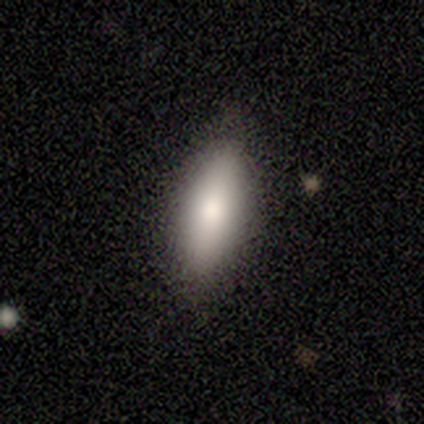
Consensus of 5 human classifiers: smooth_or_featured: smooth (p=0.80) [alt: star or artifact p=0.20]
how_rounded: in between (p=0.50) [tied with: cigar-shaped p=0.50]
merging: none (p=1.00)